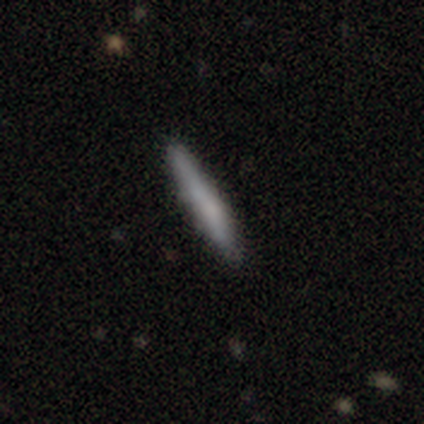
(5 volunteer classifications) Smooth or featured?
  - smooth: 60% *
  - featured or disk: 40%
  - star or artifact: 0%
How rounded?
  - cigar-shaped: 100% *
  - round: 0%
  - in between: 0%
Merging?
  - none: 80% *
  - minor disturbance: 20%
  - major disturbance: 0%
  - merger: 0%